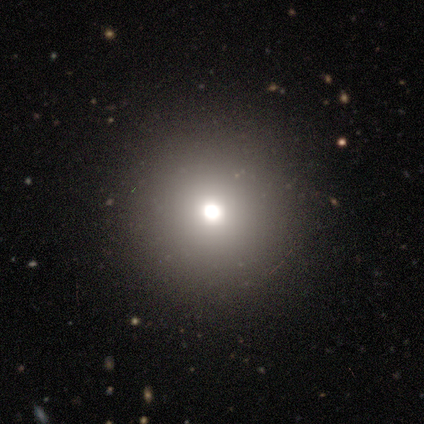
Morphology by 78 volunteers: Volunteers were most divided on "merging": none: 46%, major disturbance: 3%, minor disturbance: 2%, merger: 0%. More confident: how rounded — round (97%); smooth or featured — smooth (79%).